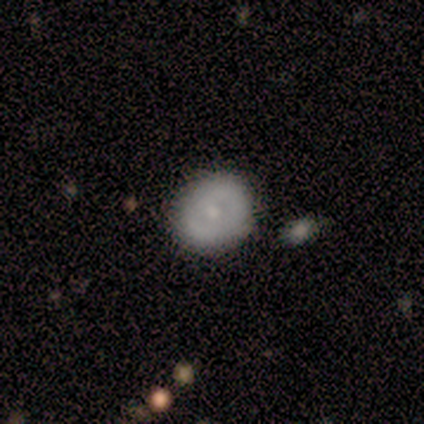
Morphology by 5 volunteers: Overall: featured or disk (60%; smooth 20%). Edge-on disk: no (100%). Bar: no (67%; strong 33%). Spiral arms: yes (67%; no 33%). Spiral arm count: 2 (100%). Spiral winding: tight (50%, tied with medium). Bulge size: moderate (67%; small 33%). Merging: none (100%).